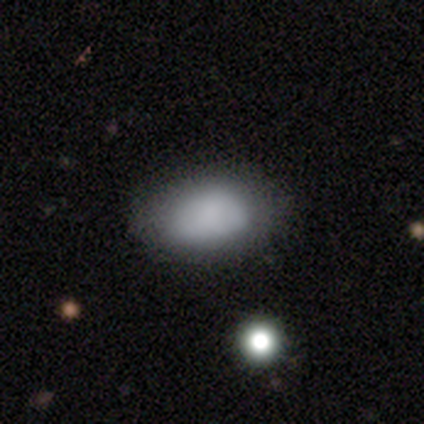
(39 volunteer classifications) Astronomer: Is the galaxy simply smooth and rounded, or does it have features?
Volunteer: smooth — 90%.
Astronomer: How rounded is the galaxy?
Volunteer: in between — 89%.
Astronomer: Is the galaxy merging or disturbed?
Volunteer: none — 59%.